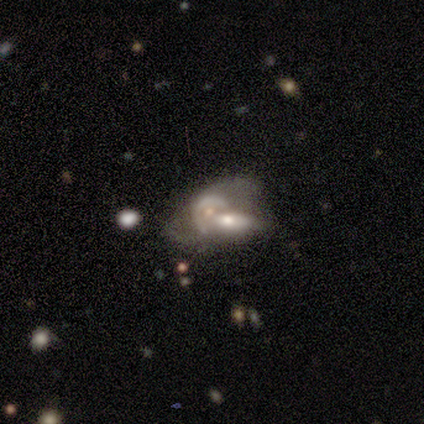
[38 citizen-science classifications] featured or disk 45%, smooth 39%, star or artifact 16%. Down the decision tree: edge-on disk — no (88%); bar — no (93%); spiral arms — no (73%); bulge size — moderate (53%); merging — merger (53%).